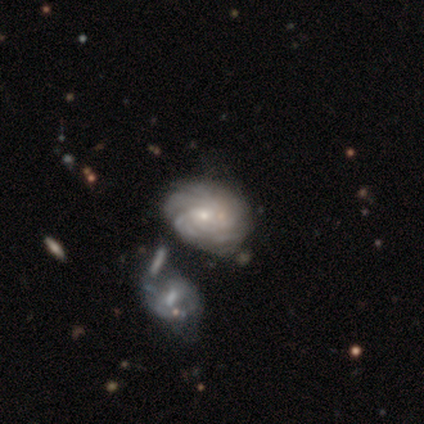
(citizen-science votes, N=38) A featured or disk galaxy (89%) with no bar (71%), tight (73%) spiral arms (97%) and a small central bulge (82%). Merging: none (58%).